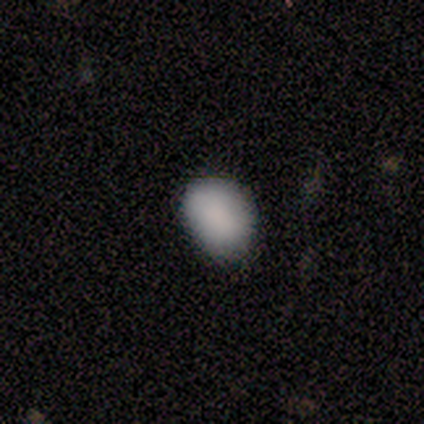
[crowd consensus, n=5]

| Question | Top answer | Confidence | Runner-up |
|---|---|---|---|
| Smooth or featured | smooth | 100% | — |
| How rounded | in between | 60% | round (40%) |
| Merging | none | 80% | minor disturbance (20%) |